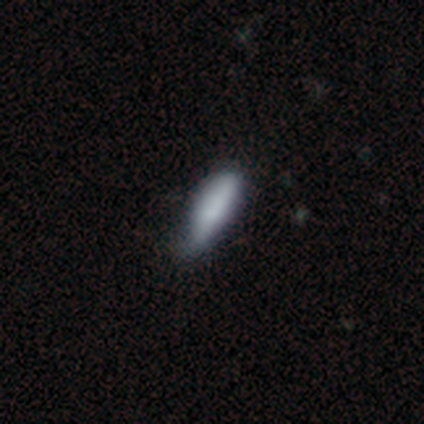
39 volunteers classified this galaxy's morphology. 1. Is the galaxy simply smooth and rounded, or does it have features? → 77% smooth, 13% featured or disk, 10% star or artifact.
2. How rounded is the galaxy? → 70% cigar-shaped, 30% in between, 0% round.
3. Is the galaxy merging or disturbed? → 54% none, 40% minor disturbance, 3% major disturbance, 3% merger.